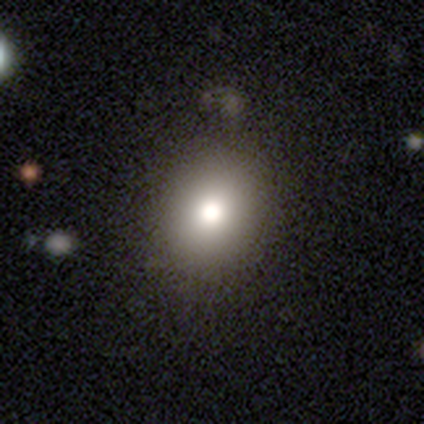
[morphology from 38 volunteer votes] Smooth or featured? 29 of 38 (76%) said smooth. How rounded? 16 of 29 (55%) said round. Merging? 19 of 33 (58%) said none.